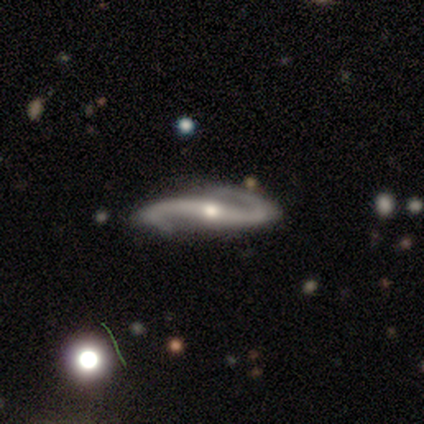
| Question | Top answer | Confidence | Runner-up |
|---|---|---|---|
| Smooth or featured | featured or disk | 95% | star or artifact (3%) |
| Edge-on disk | no | 85% | yes (15%) |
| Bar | strong | 46% | no (37%) |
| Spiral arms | yes | 97% | no (3%) |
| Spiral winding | loose | 69% | medium (24%) |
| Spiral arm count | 2 | 100% | — |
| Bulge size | moderate | 51% | small (40%) |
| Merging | none | 83% | minor disturbance (10%) |